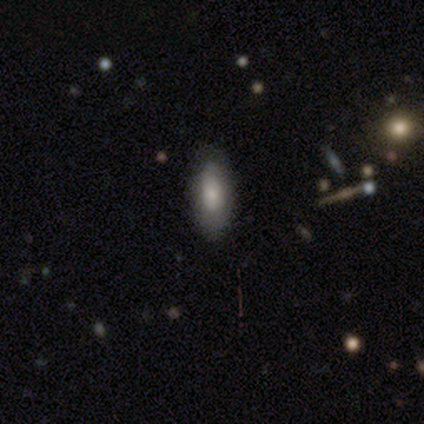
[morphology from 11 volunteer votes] This is likely a smooth galaxy (64%). How rounded: clearly in between (86%). Merging: clearly none (80%).